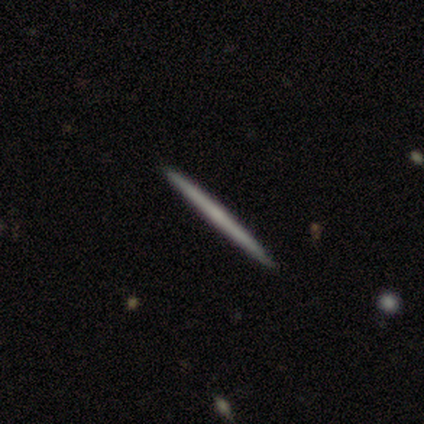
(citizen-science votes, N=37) A featured or disk galaxy (51%) viewed edge-on (100%) with no central bulge (79%). Merging: none (97%).